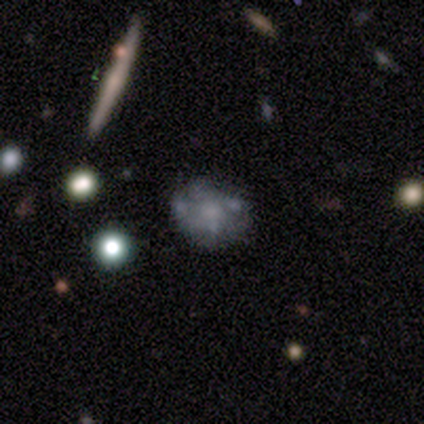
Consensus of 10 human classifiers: A featured or disk galaxy (60%) with no bar (100%), no spiral arms (83%) and a moderate central bulge (50%).

Vote fractions:
- Smooth or featured? featured or disk: 60% / smooth: 20% / star or artifact: 20%
- Edge-on disk? no: 100% / yes: 0%
- Bar? no: 100% / strong: 0% / weak: 0%
- Spiral arms? no: 83% / yes: 17%
- Bulge size? moderate: 50% / small: 33% / none: 17% / dominant: 0% / large: 0%
- Merging? none: 88% / major disturbance: 12% / minor disturbance: 0% / merger: 0%